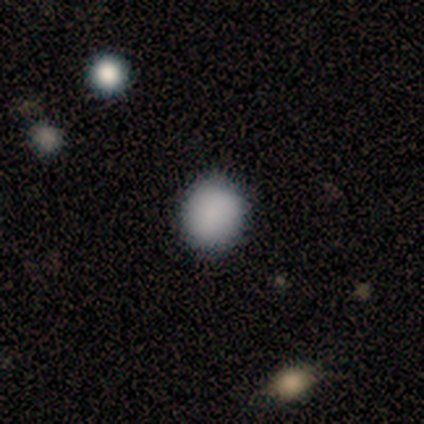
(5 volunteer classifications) Smooth or featured: smooth — 80% (star or artifact — 20%)
How rounded: round — 75% (in between — 25%)
Merging: none — 100%